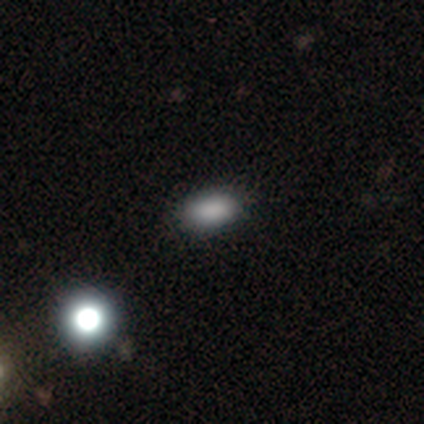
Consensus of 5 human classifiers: Smooth or featured? smooth (80%)
How rounded? in between (100%)
Merging? none (100%)